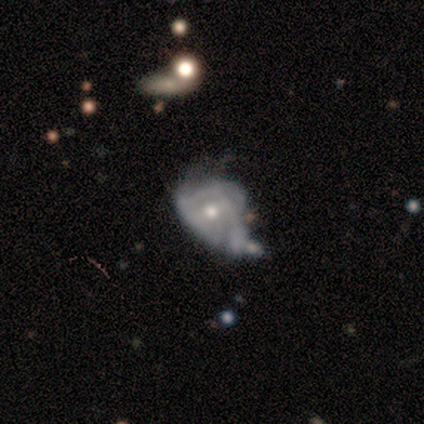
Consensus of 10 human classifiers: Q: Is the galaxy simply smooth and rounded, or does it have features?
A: featured or disk — 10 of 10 (100%).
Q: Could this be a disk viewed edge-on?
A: no — 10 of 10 (100%).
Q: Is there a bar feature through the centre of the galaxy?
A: no — 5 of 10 (50%).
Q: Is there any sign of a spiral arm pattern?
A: yes — 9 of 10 (90%).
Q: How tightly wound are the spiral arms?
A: tight — 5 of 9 (56%).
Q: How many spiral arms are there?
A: can't tell — 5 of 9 (56%).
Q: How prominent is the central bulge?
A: moderate — 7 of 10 (70%).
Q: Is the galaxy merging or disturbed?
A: minor disturbance — 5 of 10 (50%).